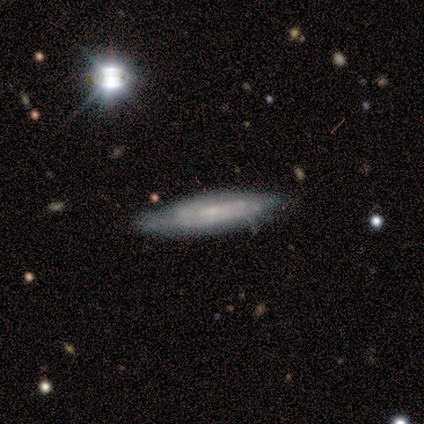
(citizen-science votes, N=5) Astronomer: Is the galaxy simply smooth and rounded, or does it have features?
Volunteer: smooth — 80%.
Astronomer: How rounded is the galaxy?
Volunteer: in between — 50%, tied with cigar-shaped at 50%.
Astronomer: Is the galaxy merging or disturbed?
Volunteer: none — 100%.